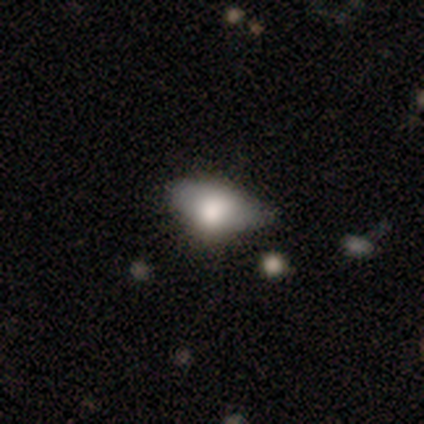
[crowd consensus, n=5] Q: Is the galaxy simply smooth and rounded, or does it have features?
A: smooth — 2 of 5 (40%, tied with featured or disk).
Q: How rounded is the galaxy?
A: in between — 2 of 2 (100%).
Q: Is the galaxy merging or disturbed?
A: none — 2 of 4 (50%).